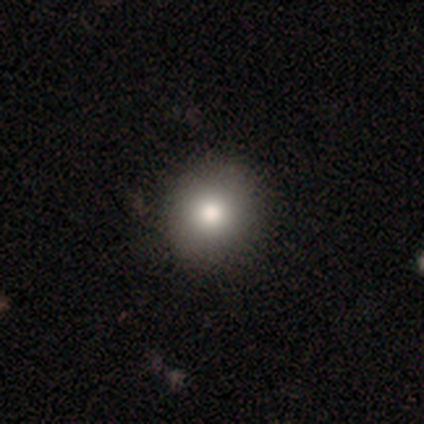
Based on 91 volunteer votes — Smooth or featured: smooth — 78% (star or artifact — 13%)
How rounded: round — 86% (in between — 14%)
Merging: none — 90% (minor disturbance — 6%)